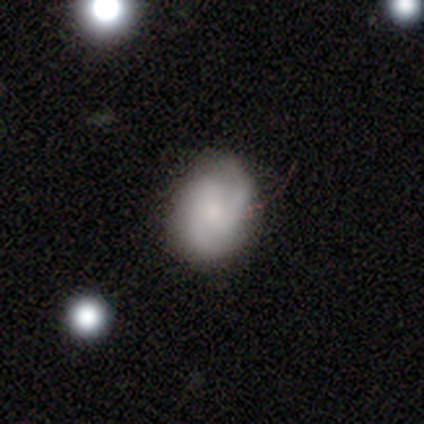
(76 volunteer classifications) Overall: featured or disk (50%; smooth 46%). Edge-on disk: no (100%). Bar: no (66%; weak 29%). Spiral arms: yes (87%). Spiral arm count: 2 (61%; 3 21%). Spiral winding: tight (48%; medium 33%). Bulge size: small (53%; moderate 21%). Merging: none (68%).